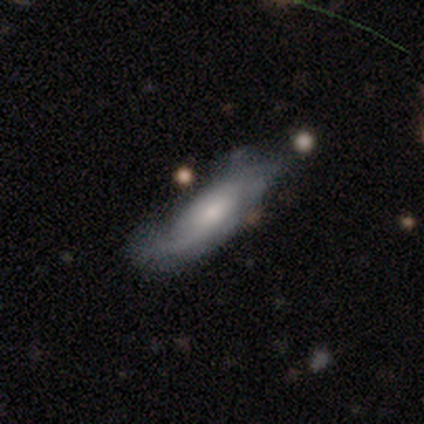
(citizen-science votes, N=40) smooth-or-featured: featured or disk: 62% | smooth: 32% | star or artifact: 5%
  disk-edge-on: no: 80% | yes: 20%
    bar: no: 65% | weak: 35% | strong: 0%
    has-spiral-arms: yes: 85% | no: 15%
      spiral-winding: medium: 59% | loose: 24% | tight: 18%
      spiral-arm-count: 2: 65% | can't tell: 24% | 1: 6% | 4: 6% | 3: 0% | more than 4: 0%
    bulge-size: small: 45% | moderate: 25% | none: 20% | large: 10% | dominant: 0%
  merging: none: 39% (tied) | minor disturbance: 39% (tied) | major disturbance: 16% | merger: 5%